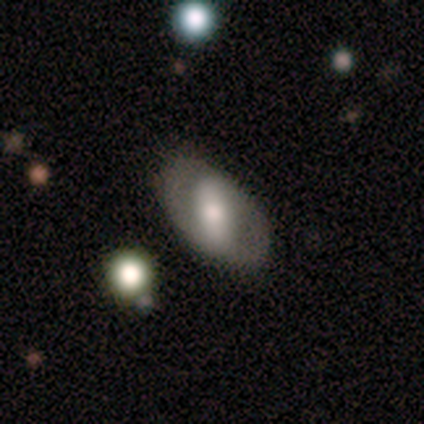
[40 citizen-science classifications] Morphology: type=smooth (48%); roundness=in between (95%); merging=none (86%).